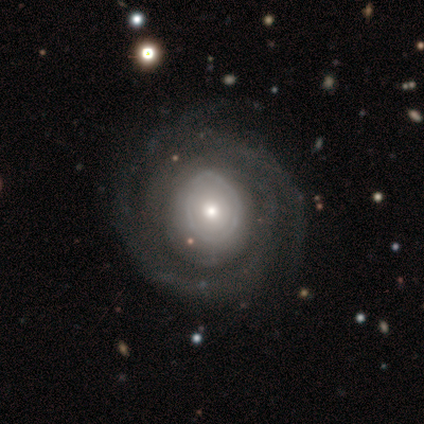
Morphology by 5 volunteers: Smooth or featured? featured or disk (100%)
Edge-on disk? no (100%)
Bar? no (100%)
Spiral arms? no (60%)
Bulge size? moderate (40%, tied with small)
Merging? none (60%)